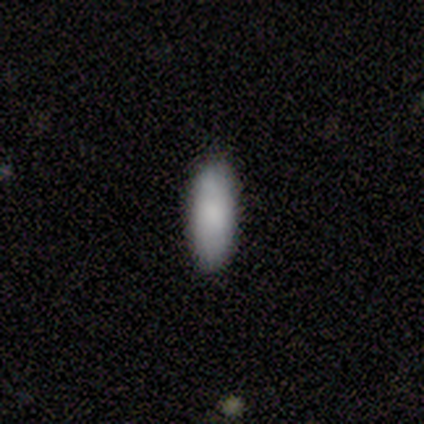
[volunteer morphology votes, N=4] type=smooth (100%); roundness=in between (75%); merging=none (100%).